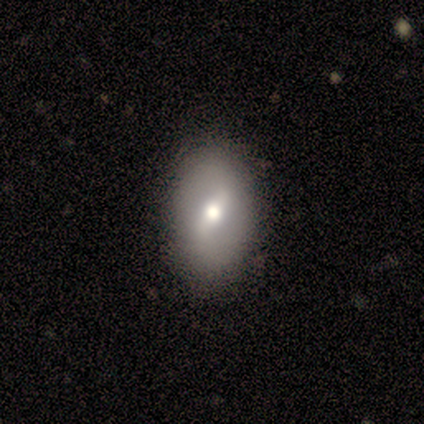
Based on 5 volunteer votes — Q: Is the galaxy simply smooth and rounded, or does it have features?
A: smooth — 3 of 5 (60%).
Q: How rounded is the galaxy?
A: in between — 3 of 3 (100%).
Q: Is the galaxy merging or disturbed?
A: none — 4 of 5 (80%).